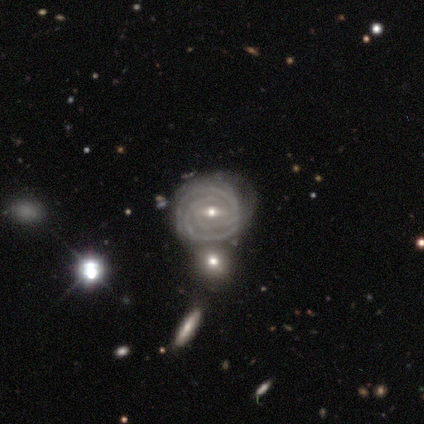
smooth-or-featured: featured or disk: 100% | smooth: 0% | star or artifact: 0%
  disk-edge-on: no: 100% | yes: 0%
    bar: weak: 67% | strong: 33% | no: 0%
    has-spiral-arms: yes: 67% | no: 33%
      spiral-winding: tight: 100% | medium: 0% | loose: 0%
      spiral-arm-count: 2: 50% (tied) | 3: 50% (tied) | 1: 0% | 4: 0% | more than 4: 0% | can't tell: 0%
    bulge-size: small: 67% | moderate: 33% | dominant: 0% | large: 0% | none: 0%
  merging: none: 67% | merger: 33% | minor disturbance: 0% | major disturbance: 0%